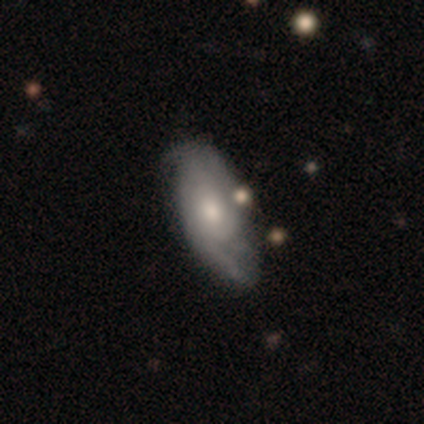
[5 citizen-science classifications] Morphology: type=smooth (60%); roundness=in between (100%); merging=none (50%).